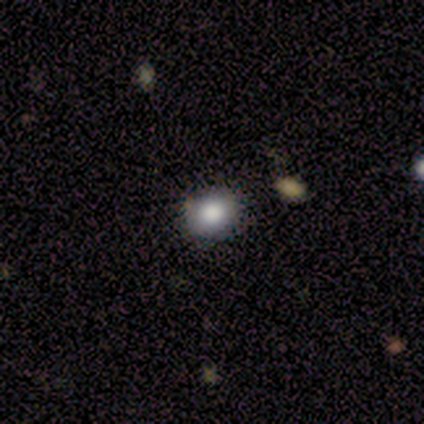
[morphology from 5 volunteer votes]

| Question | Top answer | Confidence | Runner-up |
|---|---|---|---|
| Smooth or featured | smooth | 100% | — |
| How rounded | round | 80% | in between (20%) |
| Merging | none | 80% | minor disturbance (20%) |